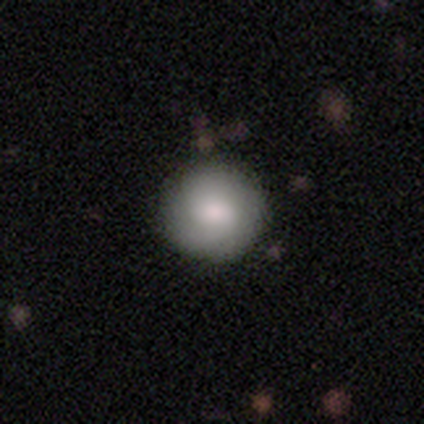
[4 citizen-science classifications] Smooth or featured? smooth (75%)
How rounded? round (100%)
Merging? none (100%)